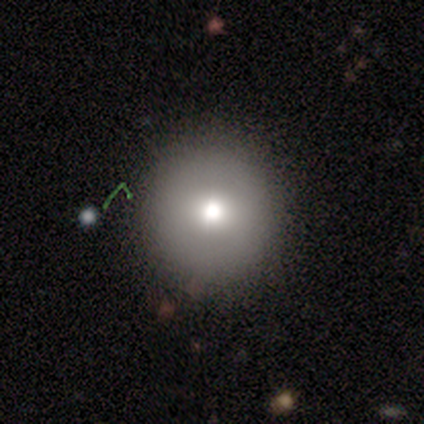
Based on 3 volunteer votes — This appears to be a smooth galaxy with no disk features (67%) that is round (100%). Merging: none (100%).